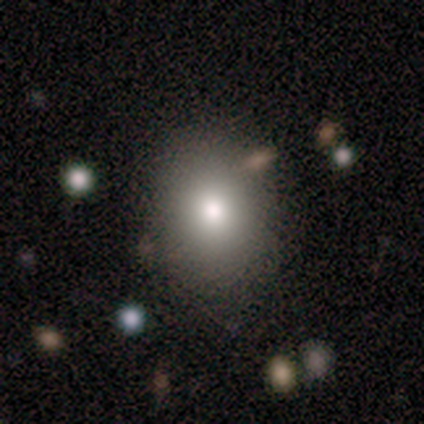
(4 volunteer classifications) smooth_or_featured: smooth (p=0.50) [alt: featured or disk p=0.25]
how_rounded: round (p=0.50) [tied with: in between p=0.50]
merging: none (p=0.67) [alt: merger p=0.33]